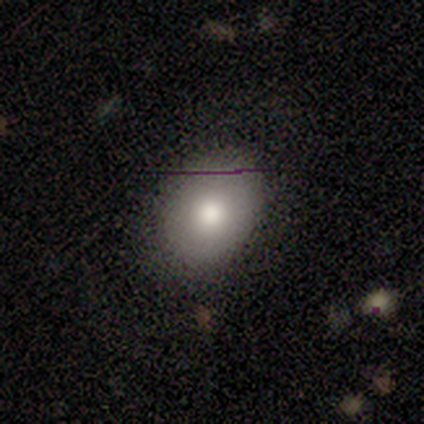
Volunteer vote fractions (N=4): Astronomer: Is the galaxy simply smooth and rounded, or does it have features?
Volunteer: smooth — 50%, tied with featured or disk at 50%.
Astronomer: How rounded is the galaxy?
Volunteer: in between — 100%.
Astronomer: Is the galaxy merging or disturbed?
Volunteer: none — 75%.